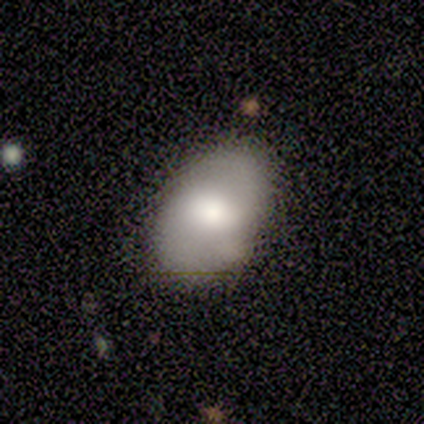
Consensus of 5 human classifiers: Smooth or featured? smooth (100%)
How rounded? in between (100%)
Merging? none (80%)